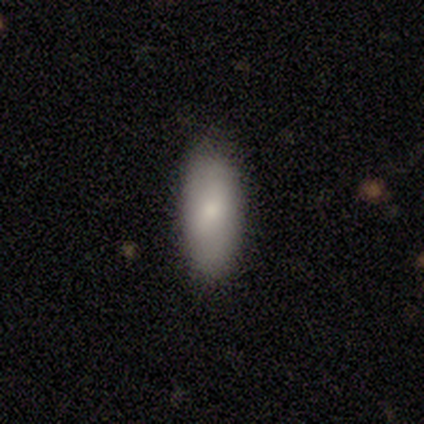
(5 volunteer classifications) This appears to be a smooth galaxy with no disk features (100%) that is in between round and cigar-shaped (80%). Merging: none (100%).